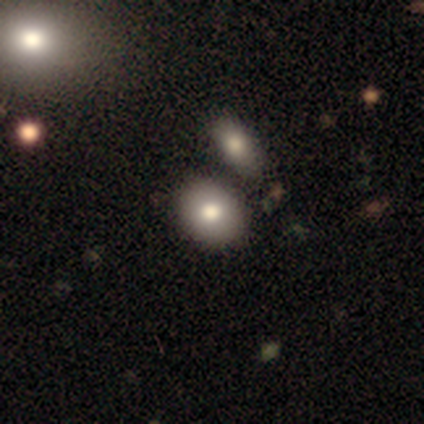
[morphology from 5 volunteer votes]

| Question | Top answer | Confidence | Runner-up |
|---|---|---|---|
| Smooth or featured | smooth | 80% | featured or disk (20%) |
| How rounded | round | 50% | tied: in between (50%) |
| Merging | none | 100% | — |